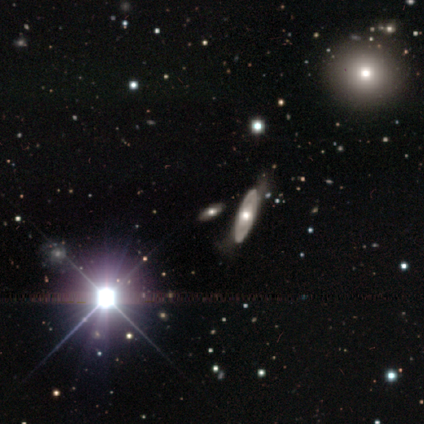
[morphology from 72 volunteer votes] A featured or disk galaxy (47%) with no bar (95%), no spiral arms (82%) and a moderate central bulge (68%). Merging: none (70%).